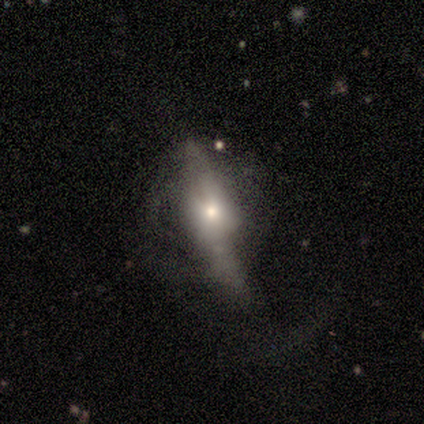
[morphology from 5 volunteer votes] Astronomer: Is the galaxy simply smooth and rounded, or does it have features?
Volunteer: featured or disk — 60%.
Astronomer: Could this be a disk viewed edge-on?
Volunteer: yes — 67%.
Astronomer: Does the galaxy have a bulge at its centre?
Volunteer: boxy — 50%, tied with rounded at 50%.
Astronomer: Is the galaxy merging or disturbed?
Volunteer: major disturbance — 50%.